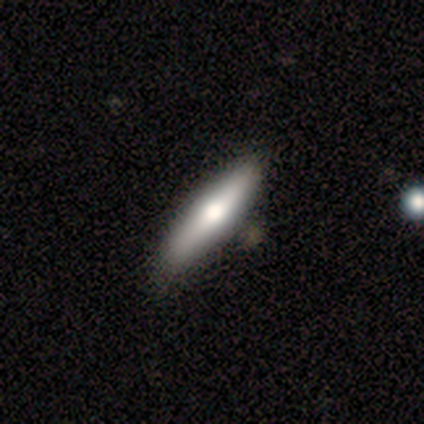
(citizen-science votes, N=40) Smooth or featured: smooth — 60% (featured or disk — 40%)
How rounded: cigar-shaped — 67% (in between — 33%)
Merging: none — 70% (minor disturbance — 8%)